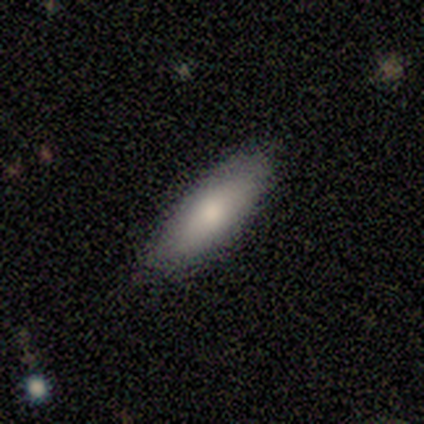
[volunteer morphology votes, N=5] Smooth or featured? smooth (100%)
How rounded? in between (100%)
Merging? none (100%)